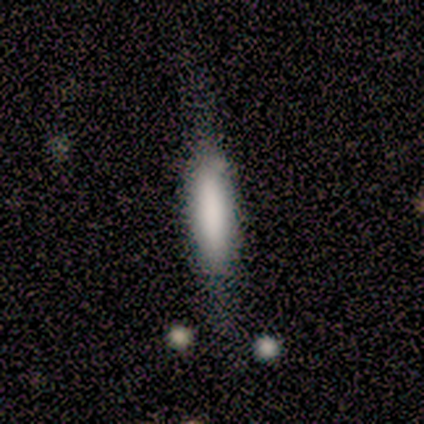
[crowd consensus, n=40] smooth-or-featured: smooth: 72% | featured or disk: 25% | star or artifact: 2%
  how-rounded: cigar-shaped: 69% | in between: 31% | round: 0%
  merging: none: 64% | minor disturbance: 26% | major disturbance: 10% | merger: 0%